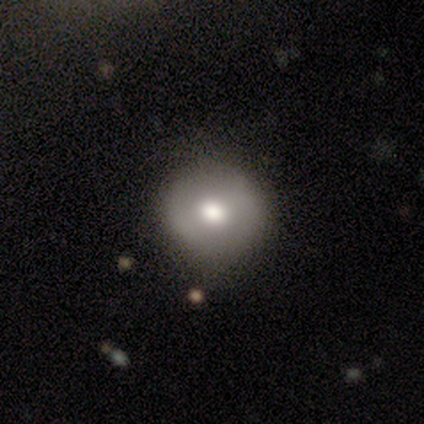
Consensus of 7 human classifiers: Smooth or featured: smooth — 86% (star or artifact — 14%)
How rounded: round — 100%
Merging: none — 67% (minor disturbance — 17%)